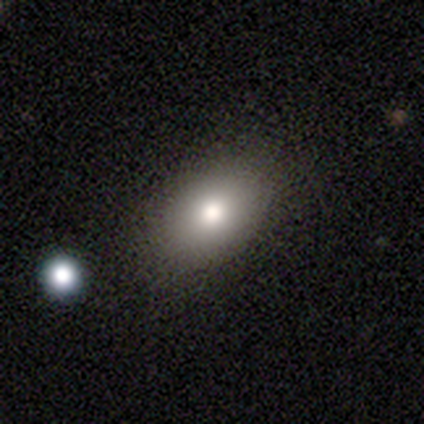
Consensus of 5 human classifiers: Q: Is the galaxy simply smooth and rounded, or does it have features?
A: smooth — 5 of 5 (100%).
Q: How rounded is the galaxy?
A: in between — 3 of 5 (60%).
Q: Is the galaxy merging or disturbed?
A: none — 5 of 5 (100%).